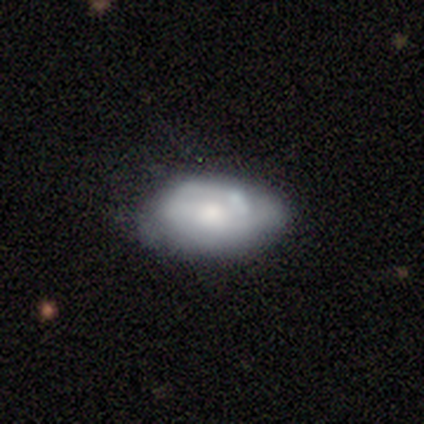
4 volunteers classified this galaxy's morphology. Smooth or featured? 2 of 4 (50%, tied with featured or disk) said smooth. How rounded? 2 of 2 (100%) said in between. Merging? 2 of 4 (50%) said none.